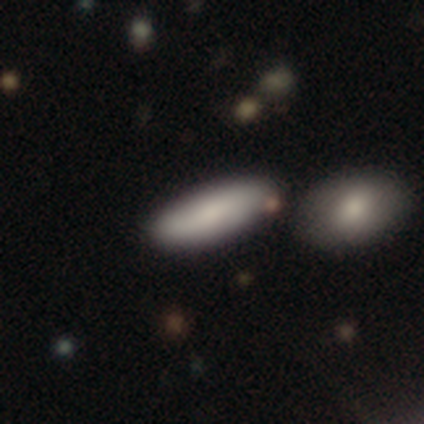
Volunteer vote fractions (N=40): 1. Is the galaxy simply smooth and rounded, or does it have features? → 78% smooth, 18% featured or disk, 5% star or artifact.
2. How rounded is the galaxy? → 58% cigar-shaped, 39% in between, 3% round.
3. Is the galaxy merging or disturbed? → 79% none, 11% minor disturbance, 11% merger, 0% major disturbance.